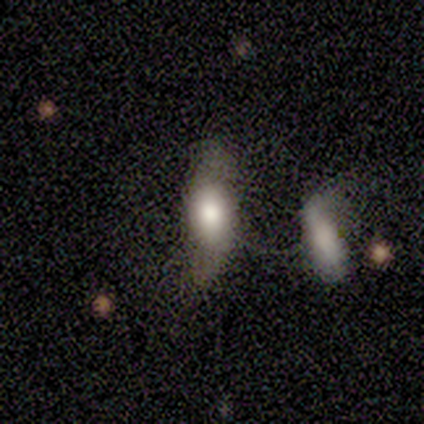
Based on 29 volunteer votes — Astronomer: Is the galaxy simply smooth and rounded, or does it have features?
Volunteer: smooth — 55% (runner-up: featured or disk, 31%).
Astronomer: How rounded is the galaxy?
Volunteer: in between — 81%.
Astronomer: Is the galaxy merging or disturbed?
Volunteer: none — 48% (runner-up: minor disturbance, 28%).